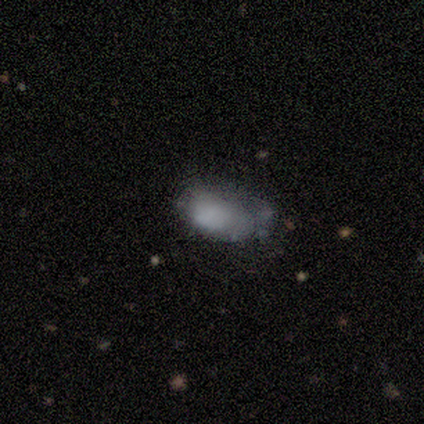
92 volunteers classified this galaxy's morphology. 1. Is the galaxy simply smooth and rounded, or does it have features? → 59% smooth, 29% featured or disk, 12% star or artifact.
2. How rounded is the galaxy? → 98% in between, 2% round, 0% cigar-shaped.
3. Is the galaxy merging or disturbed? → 37% major disturbance, 33% minor disturbance, 27% none, 2% merger.